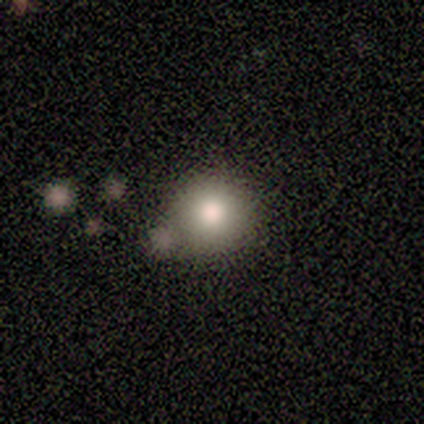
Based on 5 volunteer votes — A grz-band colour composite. It shows a smooth galaxy with no disk features (100%) that is round (100%). Merging: none (80%).